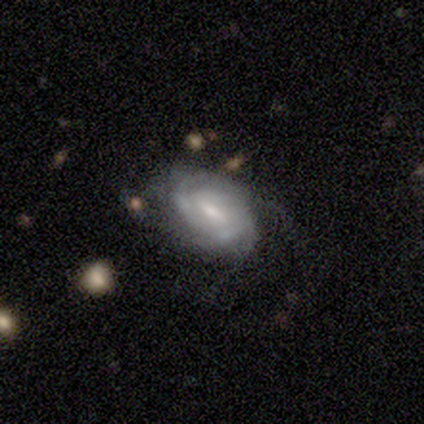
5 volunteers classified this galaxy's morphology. smooth_or_featured: featured or disk (p=0.80) [alt: smooth p=0.20]
disk_edge_on: no (p=1.00)
bar: weak (p=0.50) [alt: strong p=0.25]
has_spiral_arms: yes (p=0.75) [alt: no p=0.25]
spiral_winding: tight (p=0.67) [alt: loose p=0.33]
spiral_arm_count: 2 (p=0.33) [tied with: more than 4 p=0.33, can't tell p=0.33]
bulge_size: large (p=0.25) [tied with: moderate p=0.25, small p=0.25, none p=0.25]
merging: none (p=0.60) [alt: minor disturbance p=0.20]